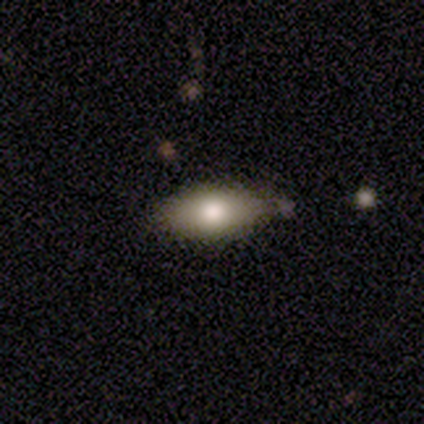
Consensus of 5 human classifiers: Q: Smooth or featured?
A: smooth (60%); runner-up: featured or disk (40%)
Q: How rounded?
A: in between (100%)
Q: Merging?
A: minor disturbance (60%); runner-up: none (40%)